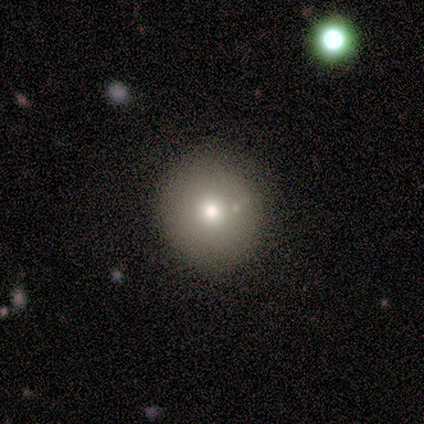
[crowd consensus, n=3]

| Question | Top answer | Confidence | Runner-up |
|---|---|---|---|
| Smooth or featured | smooth | 100% | — |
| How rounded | round | 67% | in between (33%) |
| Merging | none | 100% | — |